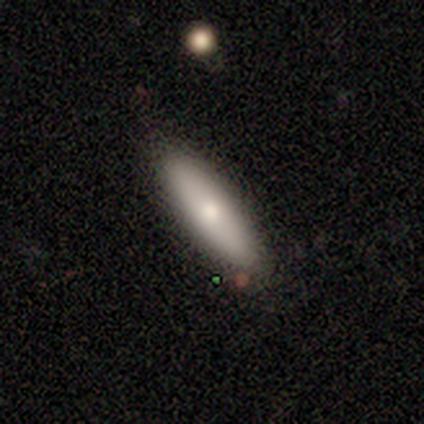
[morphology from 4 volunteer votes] smooth_or_featured: smooth (p=0.75) [alt: featured or disk p=0.25]
how_rounded: cigar-shaped (p=0.67) [alt: in between p=0.33]
merging: none (p=0.75) [alt: minor disturbance p=0.25]